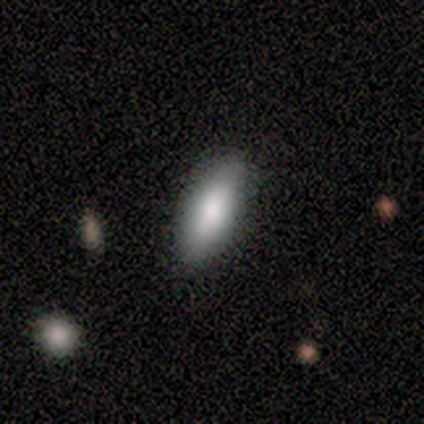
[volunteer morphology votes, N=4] Smooth or featured? 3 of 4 (75%) said smooth. How rounded? 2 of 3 (67%) said cigar-shaped. Merging? 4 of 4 (100%) said none.